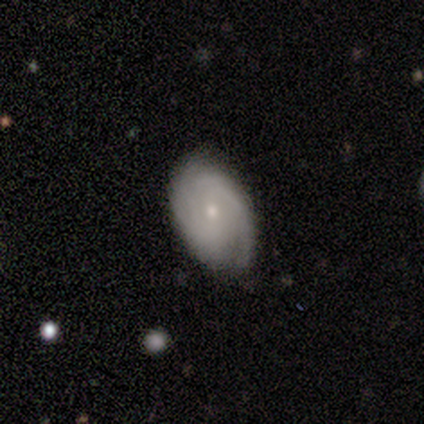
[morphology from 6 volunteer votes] Smooth or featured?
  - smooth: 50% * (tied)
  - featured or disk: 50% * (tied)
  - star or artifact: 0%
How rounded?
  - in between: 67% *
  - round: 33%
  - cigar-shaped: 0%
Merging?
  - none: 83% *
  - minor disturbance: 17%
  - major disturbance: 0%
  - merger: 0%